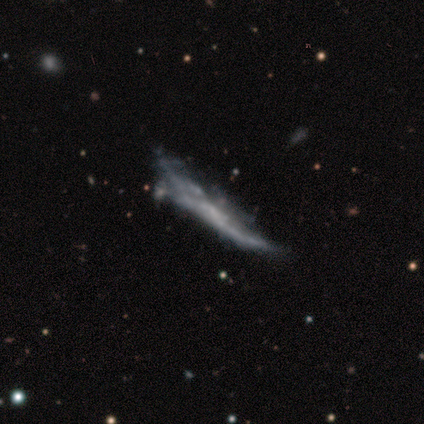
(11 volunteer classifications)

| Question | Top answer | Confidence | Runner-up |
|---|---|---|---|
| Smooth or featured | featured or disk | 64% | smooth (27%) |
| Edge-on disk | yes | 57% | no (43%) |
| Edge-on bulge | none | 75% | rounded (25%) |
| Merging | none | 50% | minor disturbance (30%) |